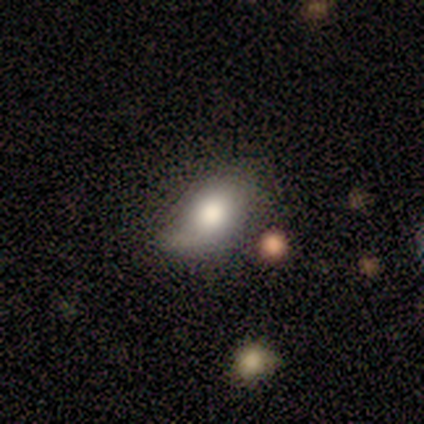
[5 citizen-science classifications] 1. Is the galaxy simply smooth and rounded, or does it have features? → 60% smooth, 40% featured or disk, 0% star or artifact.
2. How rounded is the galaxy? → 67% in between, 33% round, 0% cigar-shaped.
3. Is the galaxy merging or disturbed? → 60% none, 40% major disturbance, 0% minor disturbance, 0% merger.